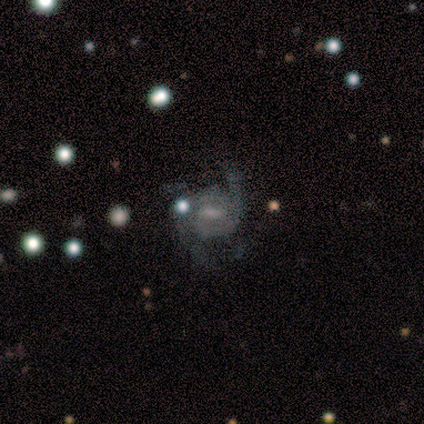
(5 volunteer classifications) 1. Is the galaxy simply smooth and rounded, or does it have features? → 80% featured or disk, 20% smooth, 0% star or artifact.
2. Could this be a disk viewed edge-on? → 100% no, 0% yes.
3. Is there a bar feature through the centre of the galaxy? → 75% weak, 25% strong, 0% no.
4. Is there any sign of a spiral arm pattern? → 100% yes, 0% no.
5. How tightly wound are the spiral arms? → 50% loose, 25% tight, 25% medium.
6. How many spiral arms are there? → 50% 2, 25% 1, 25% 4, 0% 3, 0% more than 4, 0% can't tell.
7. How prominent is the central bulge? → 75% small, 25% moderate, 0% dominant, 0% large, 0% none.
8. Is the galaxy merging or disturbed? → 80% minor disturbance, 20% none, 0% major disturbance, 0% merger.